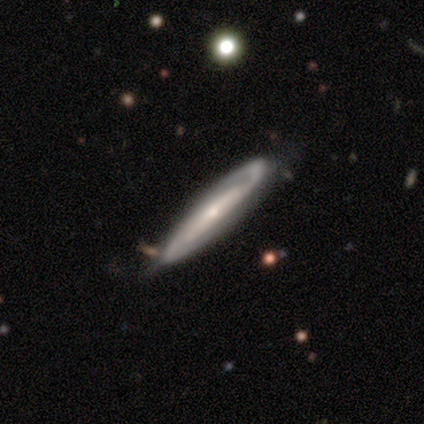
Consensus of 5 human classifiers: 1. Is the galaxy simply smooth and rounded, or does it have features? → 100% featured or disk, 0% smooth, 0% star or artifact.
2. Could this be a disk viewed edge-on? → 80% no, 20% yes.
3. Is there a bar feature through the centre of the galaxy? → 50% weak (tied), 50% no (tied), 0% strong.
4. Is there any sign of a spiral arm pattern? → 100% yes, 0% no.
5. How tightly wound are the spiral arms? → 50% tight (tied), 50% medium (tied), 0% loose.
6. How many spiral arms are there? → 100% 2, 0% 1, 0% 3, 0% 4, 0% more than 4, 0% can't tell.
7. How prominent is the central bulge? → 100% small, 0% dominant, 0% large, 0% moderate, 0% none.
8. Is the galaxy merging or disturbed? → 80% none, 20% major disturbance, 0% minor disturbance, 0% merger.